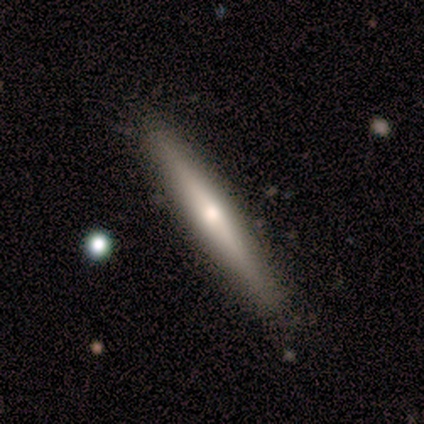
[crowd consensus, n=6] Volunteers were most divided on "smooth or featured": smooth: 83%, featured or disk: 17%, star or artifact: 0%. More confident: how rounded — cigar-shaped (100%); merging — none (83%).